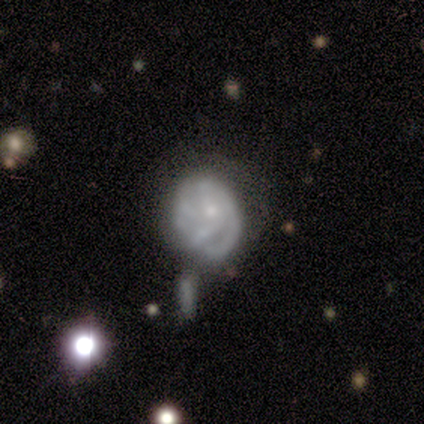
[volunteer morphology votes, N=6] A featured or disk galaxy (83%) with no bar (60%), 3 (67%) tight (67%) spiral arms (60%) and a small central bulge (100%).

Vote fractions:
- Smooth or featured? featured or disk: 83% / smooth: 17% / star or artifact: 0%
- Edge-on disk? no: 100% / yes: 0%
- Bar? no: 60% / weak: 40% / strong: 0%
- Spiral arms? yes: 60% / no: 40%
- Spiral winding? tight: 67% / medium: 33% / loose: 0%
- Spiral arm count? 3: 67% / can't tell: 33% / 1: 0% / 2: 0% / 4: 0% / more than 4: 0%
- Bulge size? small: 100% / dominant: 0% / large: 0% / moderate: 0% / none: 0%
- Merging? none: 33% (tied) / minor disturbance: 33% (tied) / major disturbance: 17% / merger: 17%